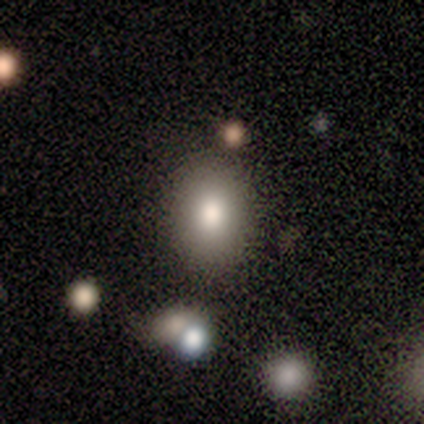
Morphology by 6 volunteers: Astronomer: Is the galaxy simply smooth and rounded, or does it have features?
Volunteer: smooth — 67%.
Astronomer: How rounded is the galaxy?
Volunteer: in between — 100%.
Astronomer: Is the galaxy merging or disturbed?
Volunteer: none — 100%.